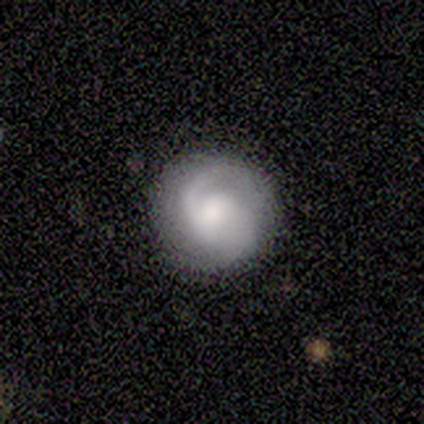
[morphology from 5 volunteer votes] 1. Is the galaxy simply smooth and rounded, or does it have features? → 60% featured or disk, 40% smooth, 0% star or artifact.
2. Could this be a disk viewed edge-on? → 100% no, 0% yes.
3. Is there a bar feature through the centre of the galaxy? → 67% no, 33% weak, 0% strong.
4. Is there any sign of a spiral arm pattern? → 100% yes, 0% no.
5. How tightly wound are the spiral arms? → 33% tight (tied), 33% medium (tied), 33% loose (tied).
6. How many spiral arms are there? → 67% 2, 33% 1, 0% 3, 0% 4, 0% more than 4, 0% can't tell.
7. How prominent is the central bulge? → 100% small, 0% dominant, 0% large, 0% moderate, 0% none.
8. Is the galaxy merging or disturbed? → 100% none, 0% minor disturbance, 0% major disturbance, 0% merger.